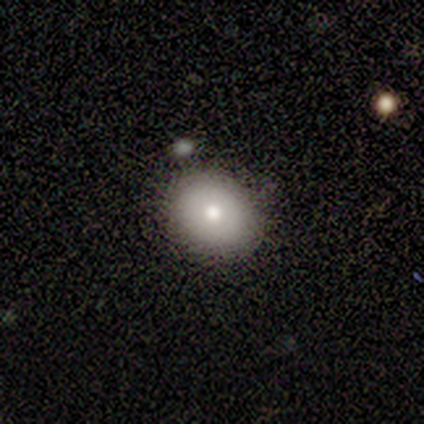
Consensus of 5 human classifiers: Smooth or featured? smooth (60%)
How rounded? round (100%)
Merging? none (75%)